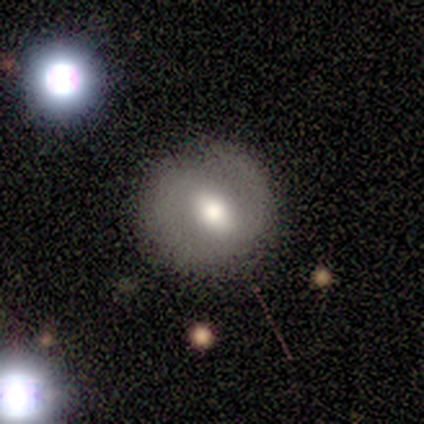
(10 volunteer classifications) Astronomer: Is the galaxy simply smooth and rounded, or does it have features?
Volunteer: smooth — 70%.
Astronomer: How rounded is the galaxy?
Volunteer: round — 86%.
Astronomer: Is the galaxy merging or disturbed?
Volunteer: none — 60% (runner-up: minor disturbance, 40%).